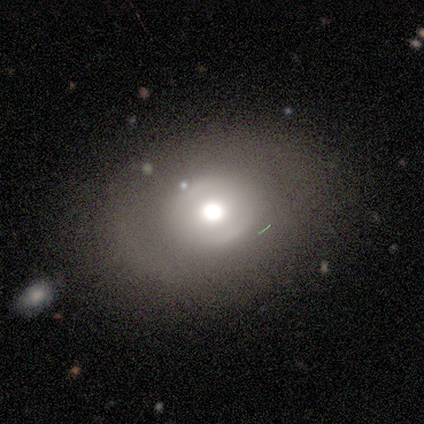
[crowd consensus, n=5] A featured or disk galaxy (60%) with no bar (67%), no spiral arms (67%) and a large central bulge (67%). Merging: none (80%).